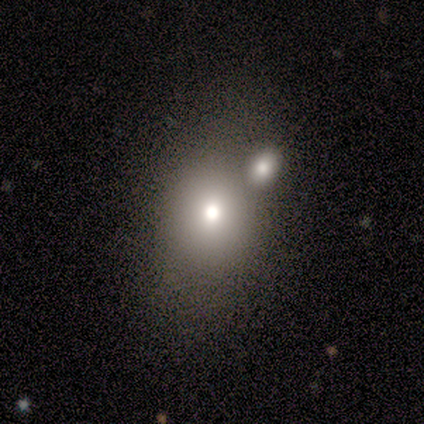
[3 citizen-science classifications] Smooth or featured? 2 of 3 (67%) said smooth. How rounded? 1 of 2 (50%, tied with in between) said round. Merging? 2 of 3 (67%) said none.